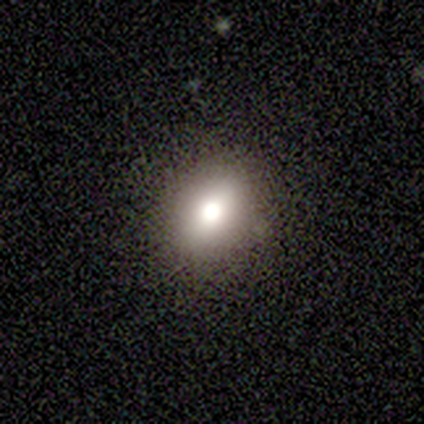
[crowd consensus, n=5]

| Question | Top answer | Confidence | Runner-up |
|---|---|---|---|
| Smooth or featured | smooth | 80% | featured or disk (20%) |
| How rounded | round | 50% | tied: in between (50%) |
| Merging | none | 60% | minor disturbance (20%) |